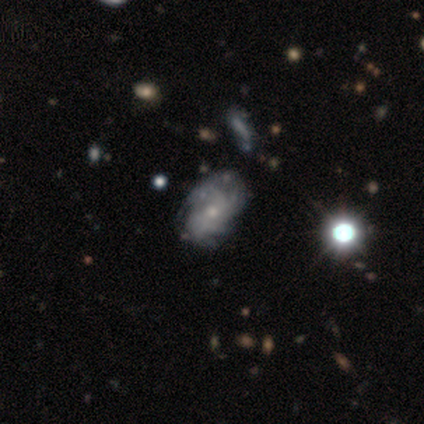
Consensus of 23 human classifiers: Smooth or featured? featured or disk (70%)
Edge-on disk? no (100%)
Bar? no (81%)
Spiral arms? yes (69%)
Spiral winding? tight (82%)
Spiral arm count? can't tell (64%)
Bulge size? small (69%)
Merging? none (50%)